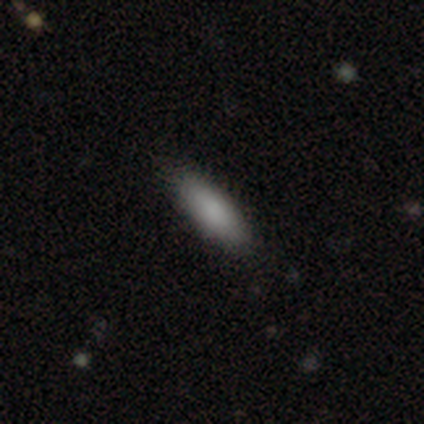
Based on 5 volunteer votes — smooth 80%, star or artifact 20%, featured or disk 0%. Down the decision tree: how rounded — in between (75%); merging — none (100%).